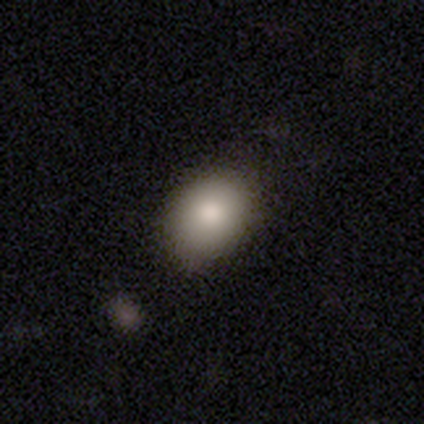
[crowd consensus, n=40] Q: Smooth or featured?
A: smooth (85%); runner-up: featured or disk (12%)
Q: How rounded?
A: in between (71%); runner-up: round (29%)
Q: Merging?
A: none (64%); runner-up: minor disturbance (15%)